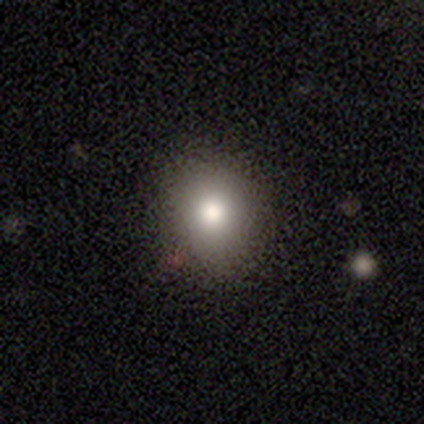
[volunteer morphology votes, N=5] Smooth or featured? 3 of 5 (60%) said smooth. How rounded? 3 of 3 (100%) said round. Merging? 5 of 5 (100%) said none.